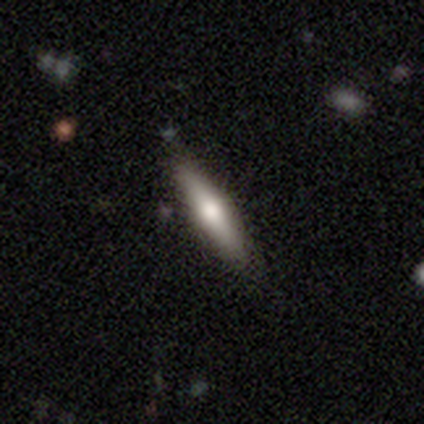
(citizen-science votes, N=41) This appears to be a smooth galaxy with no disk features (71%) that is cigar-shaped (90%). Merging: none (85%).